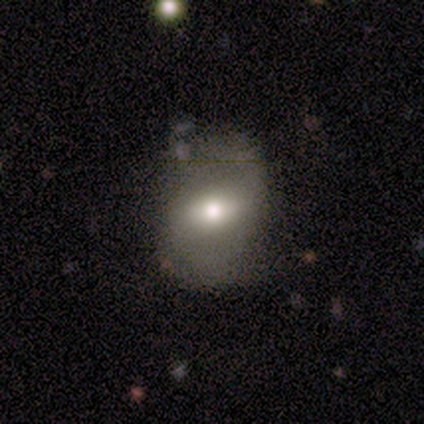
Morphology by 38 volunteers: Smooth or featured? smooth (53%)
How rounded? in between (70%)
Merging? none (65%)